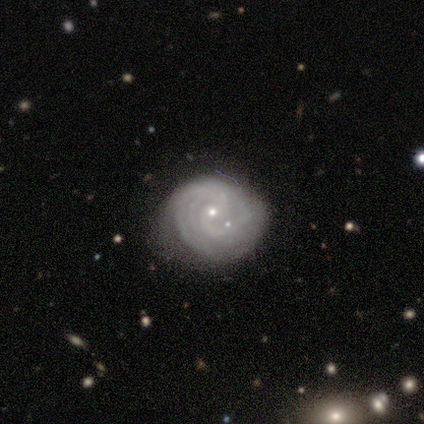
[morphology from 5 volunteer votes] Smooth or featured? featured or disk (100%)
Edge-on disk? no (100%)
Bar? no (60%)
Spiral arms? yes (80%)
Spiral winding? tight (75%)
Spiral arm count? can't tell (50%)
Bulge size? small (80%)
Merging? none (40%)